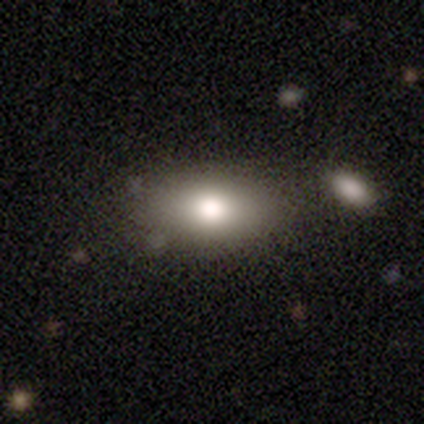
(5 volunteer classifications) Overall: smooth (60%; featured or disk 40%). How rounded: in between (100%). Merging: none (60%; minor disturbance 20%).